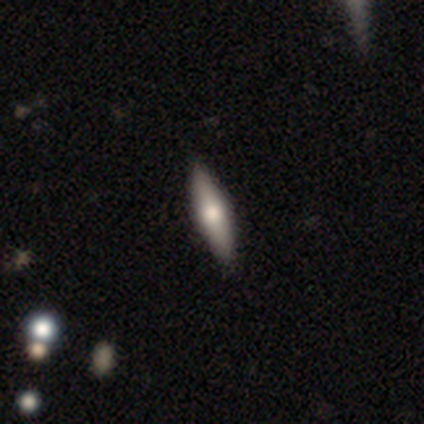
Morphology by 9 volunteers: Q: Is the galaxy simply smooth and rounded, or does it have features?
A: smooth — 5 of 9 (56%).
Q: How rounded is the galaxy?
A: cigar-shaped — 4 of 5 (80%).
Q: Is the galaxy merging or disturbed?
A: none — 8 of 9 (89%).